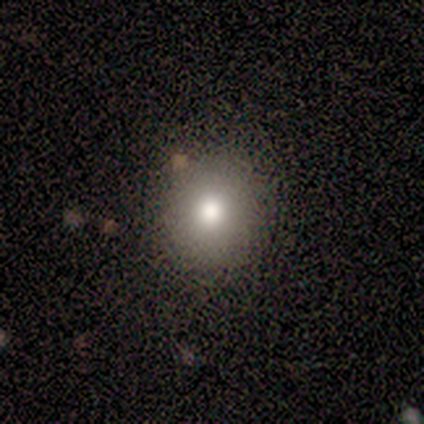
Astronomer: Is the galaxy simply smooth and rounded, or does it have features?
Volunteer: smooth — 100%.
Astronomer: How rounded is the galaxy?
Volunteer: round — 100%.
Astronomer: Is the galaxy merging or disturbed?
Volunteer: none — 100%.